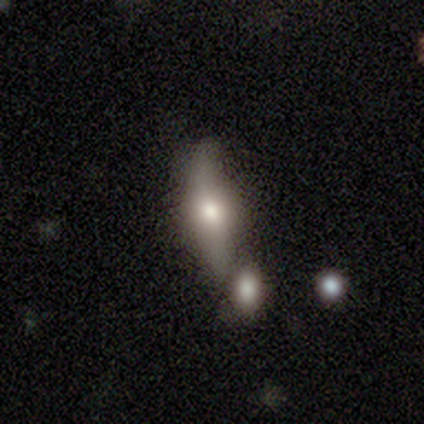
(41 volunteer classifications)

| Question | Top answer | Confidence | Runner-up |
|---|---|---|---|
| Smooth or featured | featured or disk | 63% | smooth (34%) |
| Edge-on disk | yes | 92% | no (8%) |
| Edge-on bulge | rounded | 96% | boxy (4%) |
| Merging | none | 65% | merger (22%) |